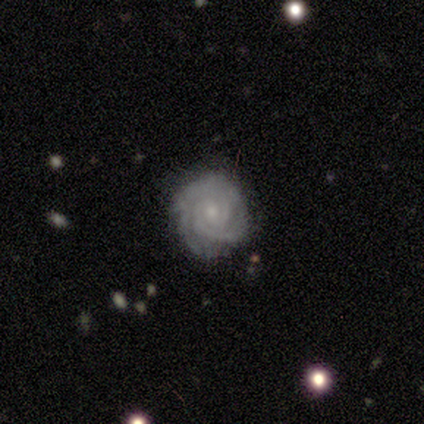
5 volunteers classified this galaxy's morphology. A featured or disk galaxy (100%) with no bar (80%), 3 (60%) tight (80%) spiral arms (100%) and a small central bulge (100%). Merging: none (80%).